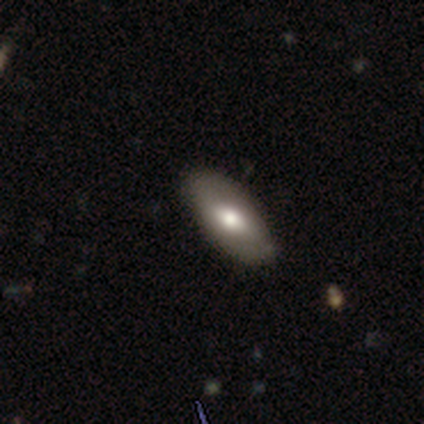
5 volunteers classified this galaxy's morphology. Overall: smooth (80%). How rounded: in between (100%). Merging: none (80%).